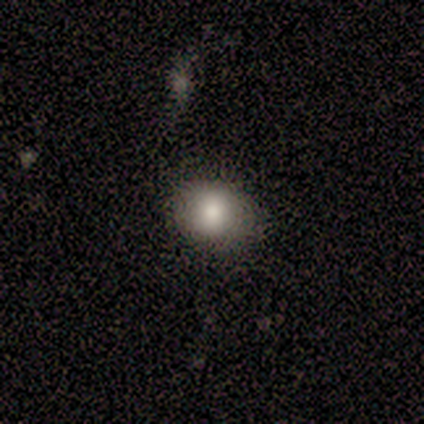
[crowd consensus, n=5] Smooth or featured? 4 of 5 (80%) said smooth. How rounded? 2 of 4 (50%, tied with in between) said round. Merging? 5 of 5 (100%) said none.